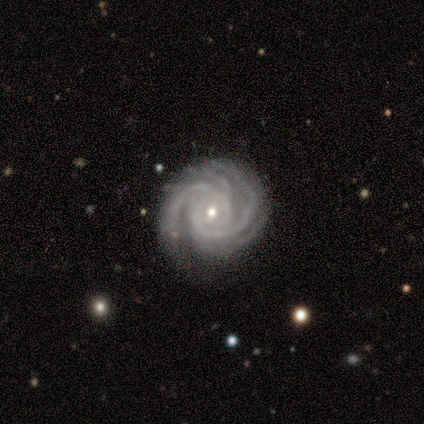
Smooth or featured?
  - featured or disk: 87% *
  - star or artifact: 8%
  - smooth: 5%
Edge-on disk?
  - no: 97% *
  - yes: 3%
Bar?
  - no: 55% *
  - weak: 39%
  - strong: 6%
Spiral arms?
  - yes: 100% *
  - no: 0%
Spiral winding?
  - tight: 73% *
  - medium: 27%
  - loose: 0%
Spiral arm count?
  - 4: 42% *
  - 2: 21%
  - 3: 18%
  - more than 4: 12%
  - can't tell: 6%
  - 1: 0%
Bulge size?
  - small: 76% *
  - moderate: 21%
  - none: 3%
  - dominant: 0%
  - large: 0%
Merging?
  - none: 78% *
  - minor disturbance: 14%
  - major disturbance: 6%
  - merger: 3%